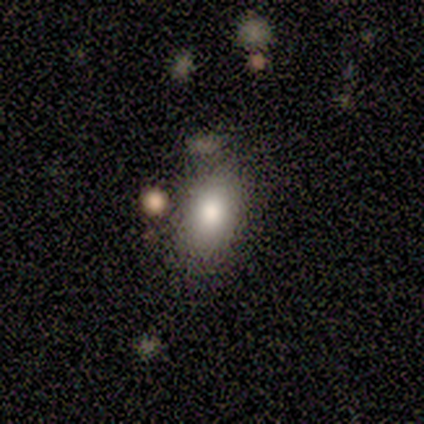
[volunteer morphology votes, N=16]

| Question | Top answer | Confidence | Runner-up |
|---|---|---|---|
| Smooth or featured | smooth | 75% | featured or disk (19%) |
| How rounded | in between | 100% | — |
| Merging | none | 73% | minor disturbance (13%) |